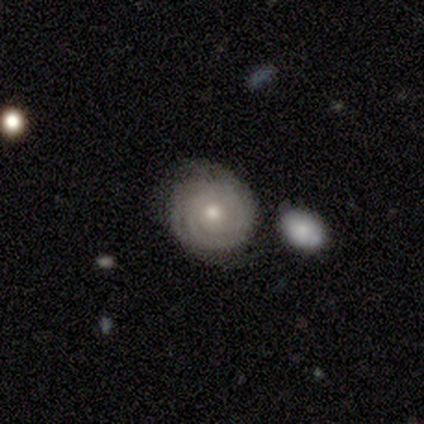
Volunteers were most divided on "spiral arm count" (2-way tie): 3: 32%, can't tell: 32%, 2: 19%, 4: 11%, more than 4: 5%, 1: 0%. More confident: edge-on disk — no (100%); bar — no (93%); spiral arms — yes (88%); spiral winding — tight (81%); smooth or featured — featured or disk (74%); merging — none (69%); bulge size — moderate (57%).